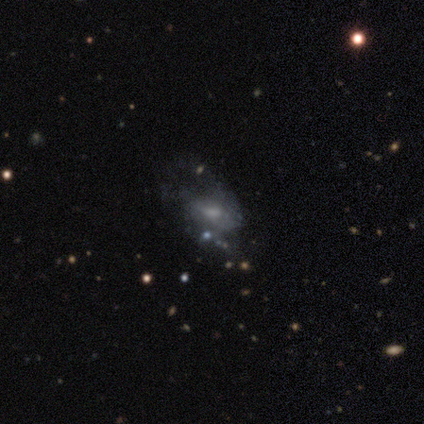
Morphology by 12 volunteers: Q: Smooth or featured?
A: featured or disk (42%); runner-up: smooth (33%)
Q: Edge-on disk?
A: no (100%)
Q: Bar?
A: no (60%); runner-up: weak (40%)
Q: Spiral arms?
A: no (80%); runner-up: yes (20%)
Q: Bulge size?
A: moderate (60%); runner-up: small (40%)
Q: Merging?
A: major disturbance (44%); runner-up: minor disturbance (33%)